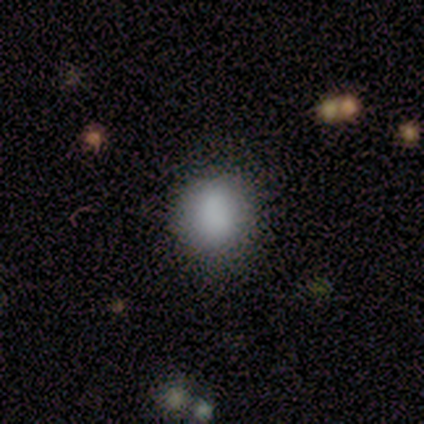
smooth 100%, featured or disk 0%, star or artifact 0%. Down the decision tree: how rounded — round (75%); merging — none (100%).